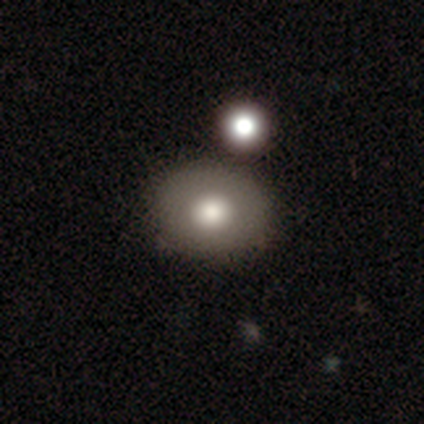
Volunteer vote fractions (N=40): A smooth galaxy with no disk features (72%) that is round (55%). Merging: none (75%).